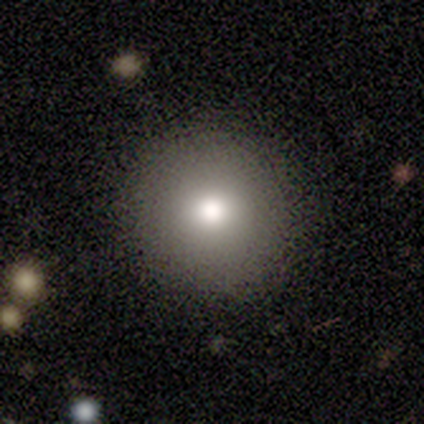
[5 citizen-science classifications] smooth_or_featured: smooth (p=0.80) [alt: featured or disk p=0.20]
how_rounded: round (p=1.00)
merging: none (p=1.00)